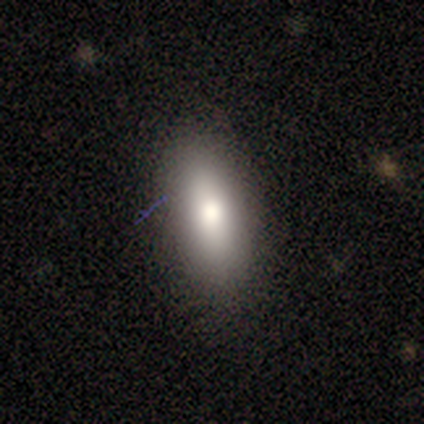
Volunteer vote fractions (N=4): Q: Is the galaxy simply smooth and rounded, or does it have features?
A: smooth — 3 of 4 (75%).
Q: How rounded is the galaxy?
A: cigar-shaped — 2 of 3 (67%).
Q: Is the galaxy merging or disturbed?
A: none — 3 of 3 (100%).